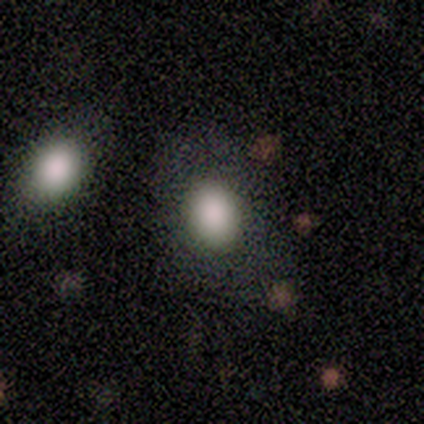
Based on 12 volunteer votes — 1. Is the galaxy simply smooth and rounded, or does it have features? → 100% smooth, 0% featured or disk, 0% star or artifact.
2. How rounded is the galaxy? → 67% in between, 33% round, 0% cigar-shaped.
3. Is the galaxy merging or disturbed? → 92% none, 8% minor disturbance, 0% major disturbance, 0% merger.